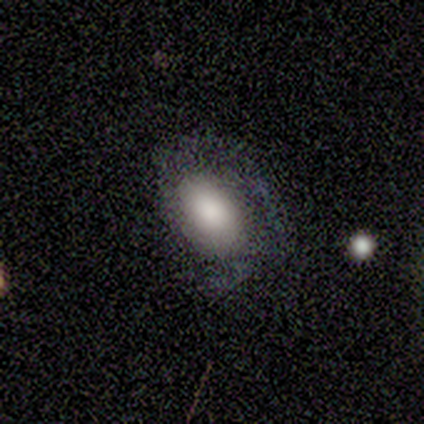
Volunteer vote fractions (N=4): Volunteers were most divided on "smooth or featured" (2-way tie): smooth: 50%, featured or disk: 50%, star or artifact: 0%. More confident: how rounded — in between (100%); merging — none (50%).